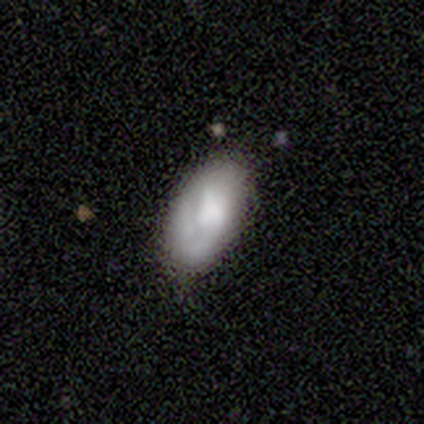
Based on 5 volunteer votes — Smooth or featured?
  - smooth: 60% *
  - featured or disk: 40%
  - star or artifact: 0%
How rounded?
  - in between: 67% *
  - round: 33%
  - cigar-shaped: 0%
Merging?
  - none: 80% *
  - minor disturbance: 20%
  - major disturbance: 0%
  - merger: 0%